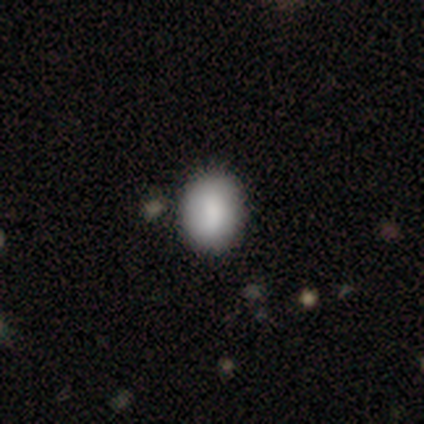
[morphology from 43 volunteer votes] Overall: smooth (86%). How rounded: in between (68%; round 32%). Merging: none (90%).